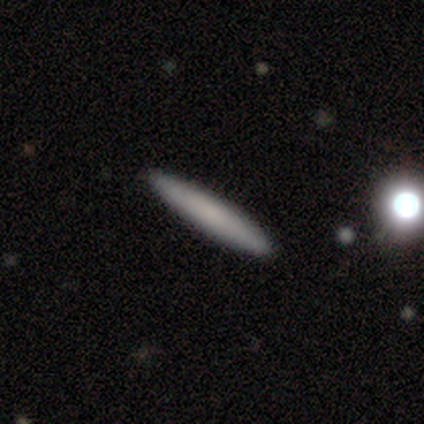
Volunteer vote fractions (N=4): smooth-or-featured: smooth: 75% | featured or disk: 25% | star or artifact: 0%
  how-rounded: cigar-shaped: 100% | round: 0% | in between: 0%
  merging: none: 100% | minor disturbance: 0% | major disturbance: 0% | merger: 0%